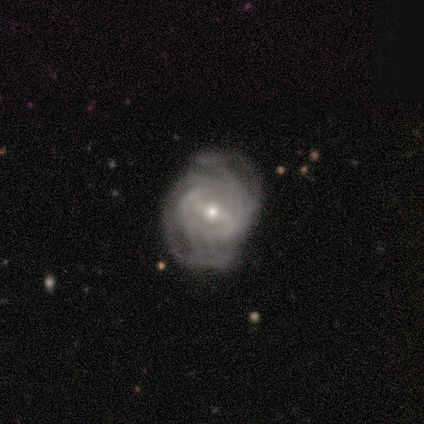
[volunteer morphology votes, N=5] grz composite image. It shows a featured or disk galaxy (100%) with a weak bar (75%), loose (50%) spiral arms (100%) and a moderate central bulge (50%, tied with small). Merging: none (80%).